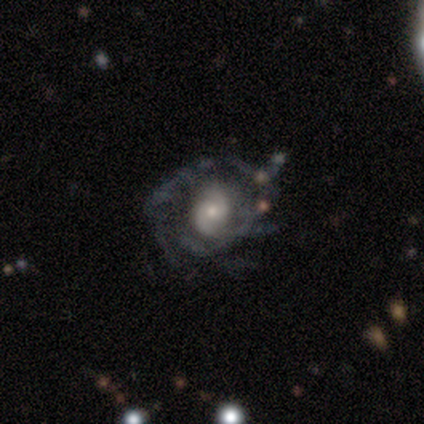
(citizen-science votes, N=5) This appears to be a featured or disk galaxy (100%) with no bar (60%), 2 (60%) medium (100%) spiral arms (100%) and a small central bulge (60%). Merging: none (80%).